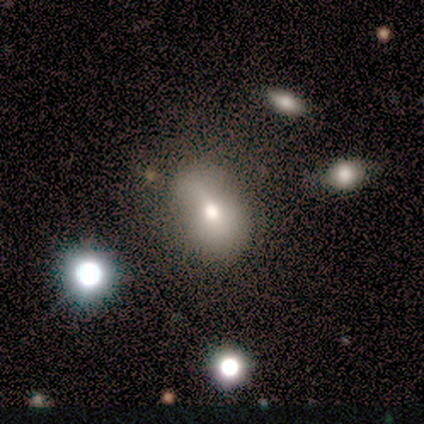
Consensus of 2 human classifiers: Smooth or featured?
  - smooth: 50% * (tied)
  - featured or disk: 50% * (tied)
  - star or artifact: 0%
How rounded?
  - in between: 100% *
  - round: 0%
  - cigar-shaped: 0%
Merging?
  - minor disturbance: 50% * (tied)
  - major disturbance: 50% * (tied)
  - none: 0%
  - merger: 0%